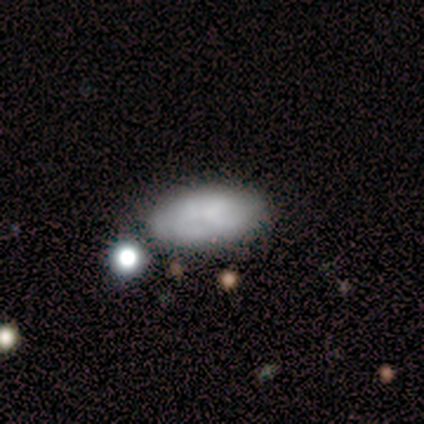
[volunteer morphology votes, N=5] Smooth or featured? smooth (80%)
How rounded? in between (100%)
Merging? none (60%)